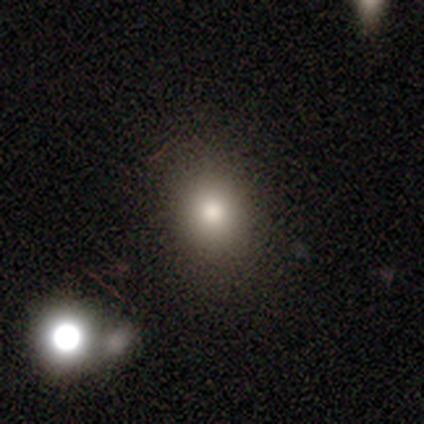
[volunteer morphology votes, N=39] Volunteers were most divided on "how rounded": round: 53%, in between: 47%, cigar-shaped: 0%. More confident: merging — none (84%); smooth or featured — smooth (77%).